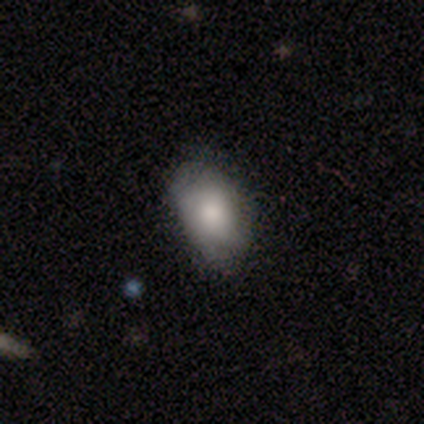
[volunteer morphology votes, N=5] Smooth or featured: smooth — 60% (featured or disk — 20%)
How rounded: in between — 100%
Merging: none — 75% (minor disturbance — 25%)